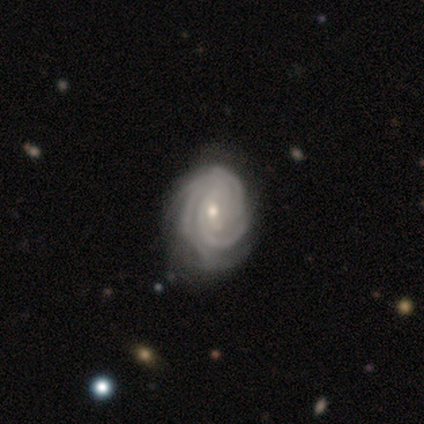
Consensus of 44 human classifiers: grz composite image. It shows a featured or disk galaxy (91%) with no bar (52%), 3 (44%) tight (92%) spiral arms (98%) and a moderate central bulge (60%). Merging: none (64%).